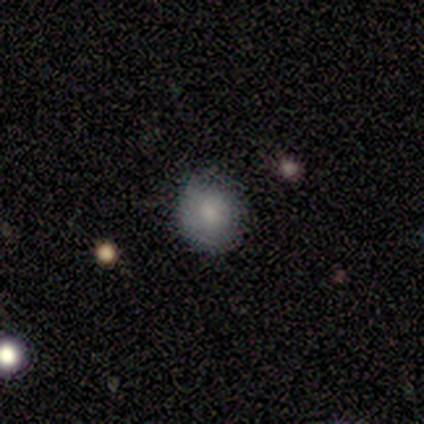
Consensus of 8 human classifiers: Smooth or featured? 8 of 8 (100%) said smooth. How rounded? 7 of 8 (88%) said round. Merging? 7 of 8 (88%) said none.